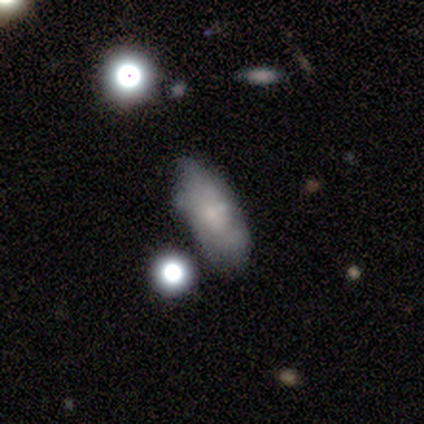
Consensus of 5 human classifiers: A smooth galaxy with no disk features (60%) that is in between round and cigar-shaped (100%). Merging: none (60%).